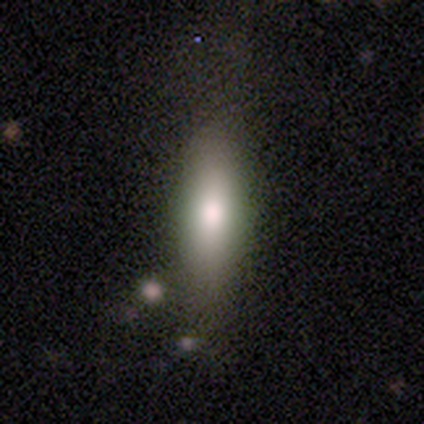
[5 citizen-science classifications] smooth-or-featured: smooth: 100% | featured or disk: 0% | star or artifact: 0%
  how-rounded: in between: 100% | round: 0% | cigar-shaped: 0%
  merging: none: 80% | minor disturbance: 20% | major disturbance: 0% | merger: 0%